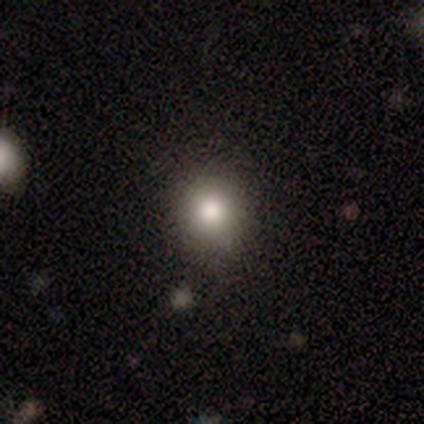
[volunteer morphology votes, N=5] Q: Smooth or featured?
A: smooth (80%); runner-up: featured or disk (20%)
Q: How rounded?
A: round (75%); runner-up: in between (25%)
Q: Merging?
A: none (80%); runner-up: minor disturbance (20%)